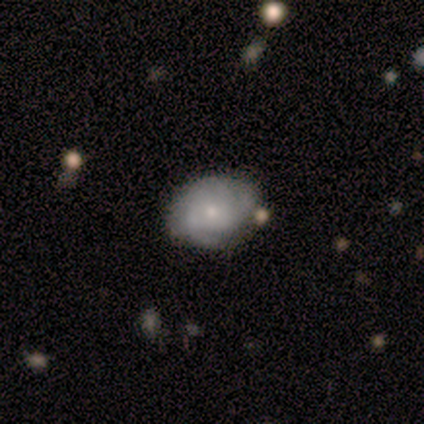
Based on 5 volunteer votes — Q: Smooth or featured?
A: smooth (60%); runner-up: featured or disk (40%)
Q: How rounded?
A: in between (67%); runner-up: round (33%)
Q: Merging?
A: none (80%); runner-up: minor disturbance (20%)